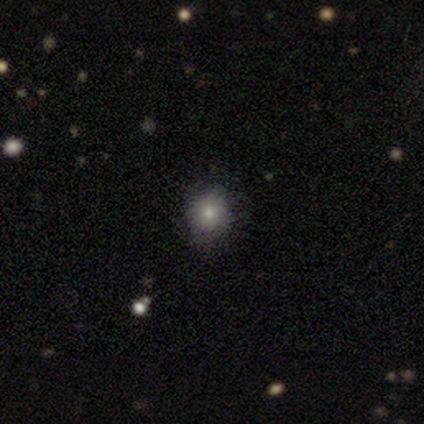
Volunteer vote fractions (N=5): This appears to be a smooth galaxy with no disk features (100%) that is round (60%). Merging: none (80%).